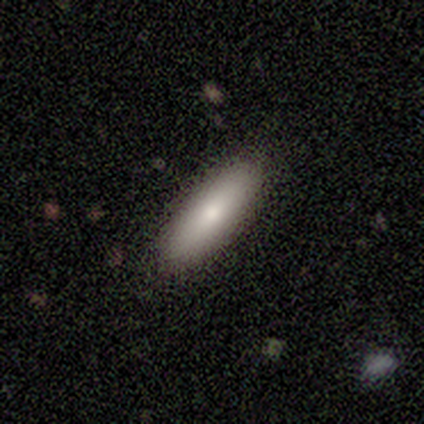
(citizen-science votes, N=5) This is likely a smooth galaxy (60%). How rounded: marginally round (33%, tied with in between and cigar-shaped). Merging: clearly none (100%).